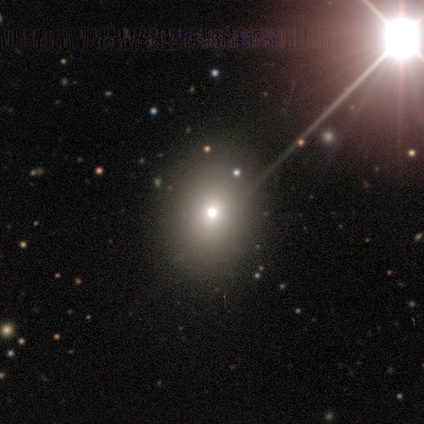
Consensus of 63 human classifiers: Volunteers were most divided on "how rounded": round: 64%, in between: 36%, cigar-shaped: 0%. More confident: merging — none (67%); smooth or featured — smooth (67%).